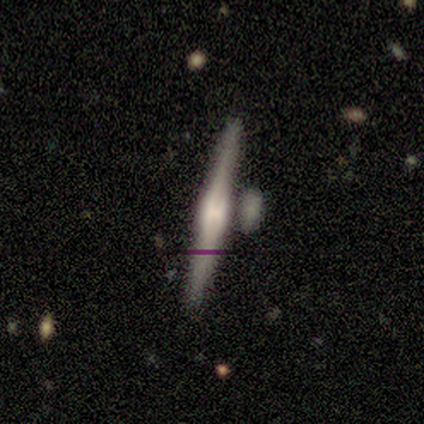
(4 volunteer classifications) This appears to be a smooth galaxy with no disk features (50%) that is cigar-shaped (100%). Merging: none (67%).